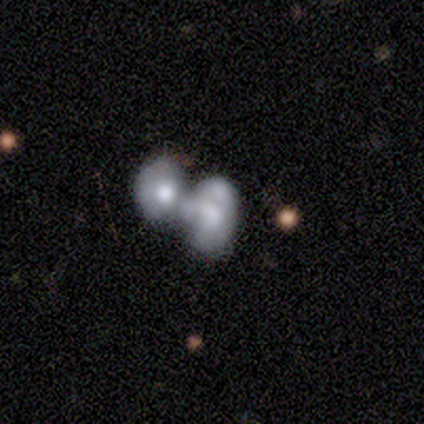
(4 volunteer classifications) Smooth or featured? smooth (50%)
How rounded? in between (100%)
Merging? merger (100%)